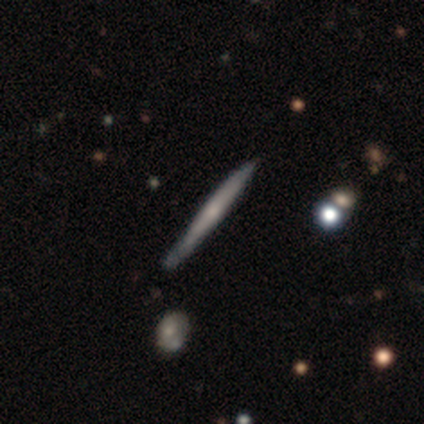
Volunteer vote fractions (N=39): Smooth or featured?
  - featured or disk: 67% *
  - smooth: 31%
  - star or artifact: 3%
Edge-on disk?
  - yes: 96% *
  - no: 4%
Edge-on bulge?
  - none: 56% *
  - rounded: 44%
  - boxy: 0%
Merging?
  - none: 68% *
  - minor disturbance: 26%
  - major disturbance: 5%
  - merger: 0%